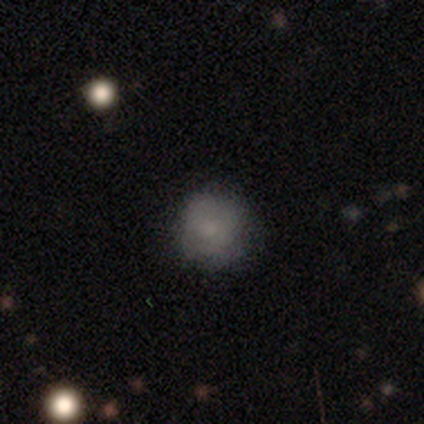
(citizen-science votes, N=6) smooth_or_featured: smooth (p=0.83) [alt: featured or disk p=0.17]
how_rounded: round (p=1.00)
merging: none (p=0.83) [alt: minor disturbance p=0.17]